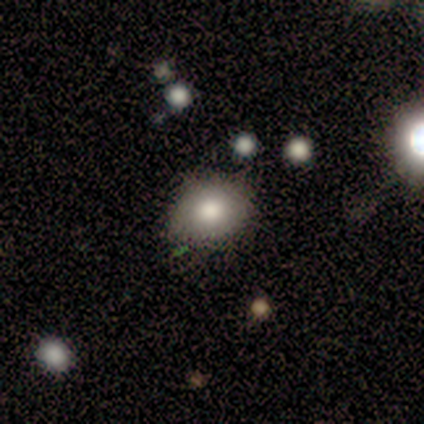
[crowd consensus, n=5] Q: Smooth or featured?
A: smooth (60%); runner-up: featured or disk (40%)
Q: How rounded?
A: in between (67%); runner-up: round (33%)
Q: Merging?
A: none (80%); runner-up: minor disturbance (20%)